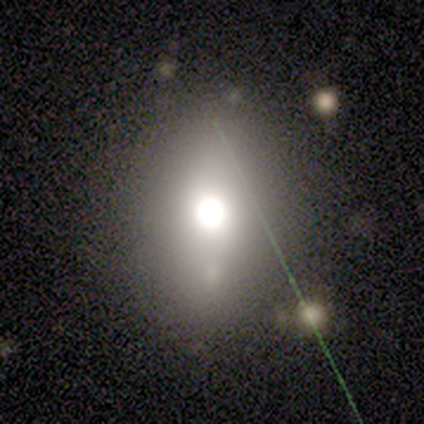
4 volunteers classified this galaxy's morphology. smooth_or_featured: smooth (p=0.75) [alt: star or artifact p=0.25]
how_rounded: round (p=0.33) [tied with: in between p=0.33, cigar-shaped p=0.33]
merging: none (p=0.67) [alt: merger p=0.33]